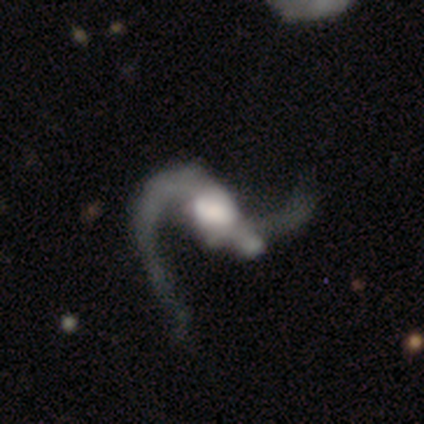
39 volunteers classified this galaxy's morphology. smooth_or_featured: featured or disk (p=0.90) [alt: smooth p=0.10]
disk_edge_on: no (p=0.97) [alt: yes p=0.03]
bar: strong (p=0.41) [alt: no p=0.35]
has_spiral_arms: yes (p=0.94) [alt: no p=0.06]
spiral_winding: loose (p=0.88) [alt: medium p=0.12]
spiral_arm_count: 2 (p=0.94) [alt: 1 p=0.06]
bulge_size: large (p=0.62) [alt: moderate p=0.18]
merging: major disturbance (p=0.33) [tied with: merger p=0.33]